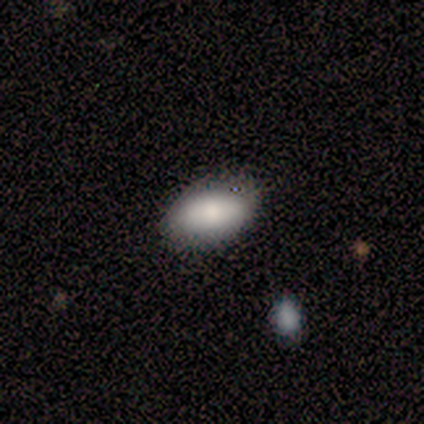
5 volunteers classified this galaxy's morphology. This is likely a smooth galaxy (60%). How rounded: likely in between (67%). Merging: clearly none (100%).